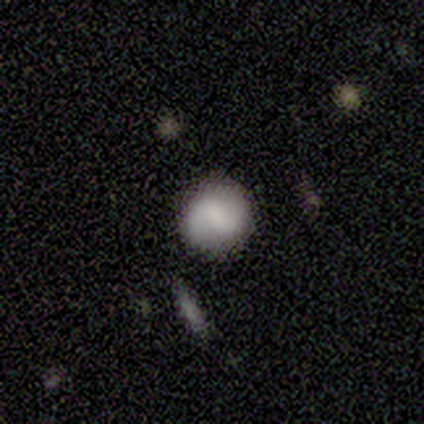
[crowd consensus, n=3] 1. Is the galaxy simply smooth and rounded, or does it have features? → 67% featured or disk, 33% smooth, 0% star or artifact.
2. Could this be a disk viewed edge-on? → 100% no, 0% yes.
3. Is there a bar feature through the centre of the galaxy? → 100% weak, 0% strong, 0% no.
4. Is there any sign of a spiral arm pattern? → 100% yes, 0% no.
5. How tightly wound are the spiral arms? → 50% medium (tied), 50% loose (tied), 0% tight.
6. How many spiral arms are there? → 100% 2, 0% 1, 0% 3, 0% 4, 0% more than 4, 0% can't tell.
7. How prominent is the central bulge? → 100% none, 0% dominant, 0% large, 0% moderate, 0% small.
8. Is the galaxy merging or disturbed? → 100% none, 0% minor disturbance, 0% major disturbance, 0% merger.